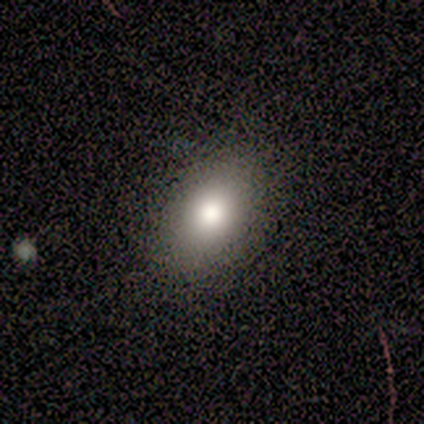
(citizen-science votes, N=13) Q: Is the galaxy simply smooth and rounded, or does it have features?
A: smooth — 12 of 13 (92%).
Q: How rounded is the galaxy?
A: in between — 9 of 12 (75%).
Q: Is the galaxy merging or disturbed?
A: none — 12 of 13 (92%).